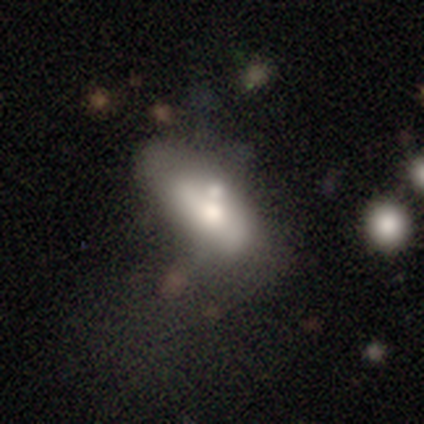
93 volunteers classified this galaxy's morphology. This is possibly a smooth galaxy (56%). How rounded: clearly in between (88%). Merging: possibly none (49%).